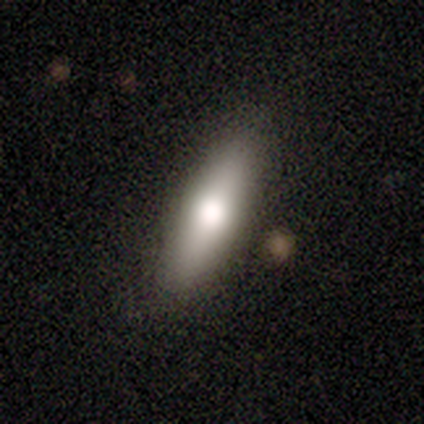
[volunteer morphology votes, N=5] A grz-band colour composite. It shows a smooth galaxy with no disk features (60%) that is cigar-shaped (100%). Merging: none (100%).